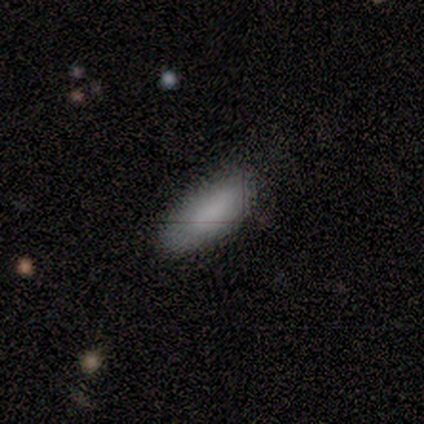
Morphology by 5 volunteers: Overall: smooth (80%). How rounded: in between (50%, tied with cigar-shaped). Merging: none (100%).